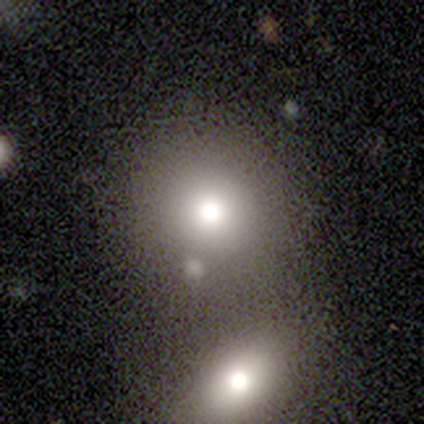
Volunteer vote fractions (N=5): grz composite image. It shows a smooth galaxy with no disk features (80%) that is round (100%). Merging: merger (75%).